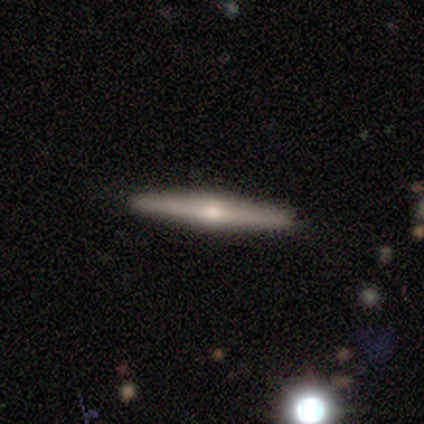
featured or disk 65%, smooth 31%, star or artifact 5%. Down the decision tree: edge-on disk — yes (98%); edge-on bulge — rounded (93%); merging — none (96%).